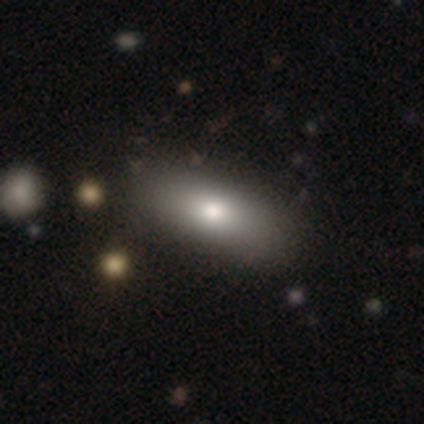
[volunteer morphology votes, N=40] type=smooth (72%); roundness=in between (72%); merging=none (62%).